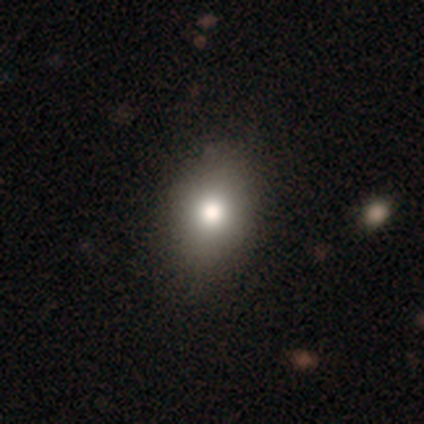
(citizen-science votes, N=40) smooth 80%, featured or disk 15%, star or artifact 5%. Down the decision tree: how rounded — in between (69%); merging — none (68%).